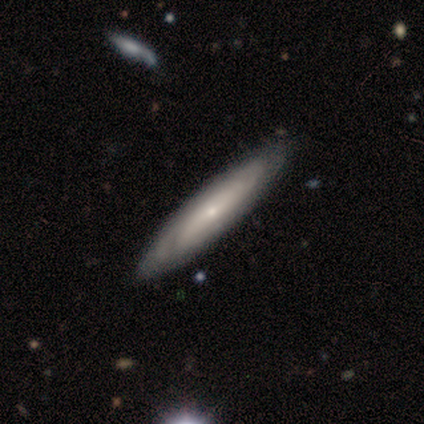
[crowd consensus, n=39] Q: Smooth or featured?
A: featured or disk (79%); runner-up: smooth (21%)
Q: Edge-on disk?
A: no (52%); runner-up: yes (48%)
Q: Bar?
A: no (88%); runner-up: strong (6%)
Q: Spiral arms?
A: yes (56%); runner-up: no (44%)
Q: Spiral winding?
A: tight (78%); runner-up: loose (22%)
Q: Spiral arm count?
A: can't tell (89%); runner-up: 4 (11%)
Q: Bulge size?
A: small (69%); runner-up: moderate (25%)
Q: Merging?
A: none (49%); runner-up: minor disturbance (5%)